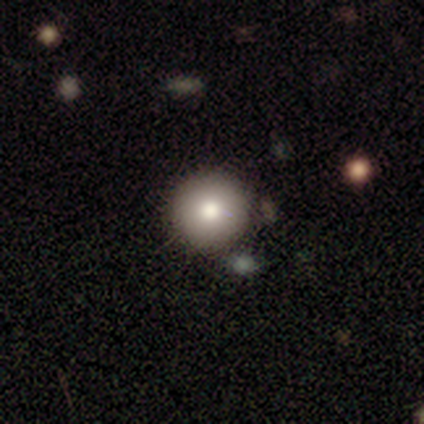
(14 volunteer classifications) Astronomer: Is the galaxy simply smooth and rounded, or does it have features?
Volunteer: smooth — 43% (runner-up: star or artifact, 36%).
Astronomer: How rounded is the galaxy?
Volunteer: round — 83%.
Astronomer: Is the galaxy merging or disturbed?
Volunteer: none — 89%.